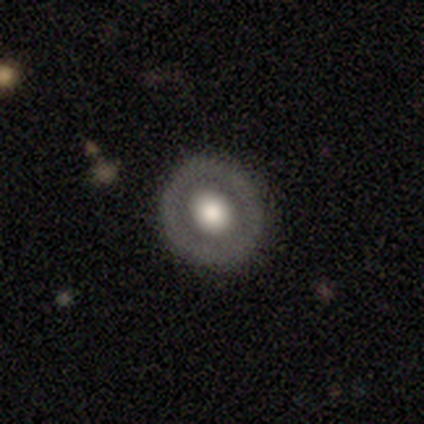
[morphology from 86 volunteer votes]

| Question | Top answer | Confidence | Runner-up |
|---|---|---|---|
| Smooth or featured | smooth | 56% | featured or disk (40%) |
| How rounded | round | 90% | in between (10%) |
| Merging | none | 90% | major disturbance (7%) |